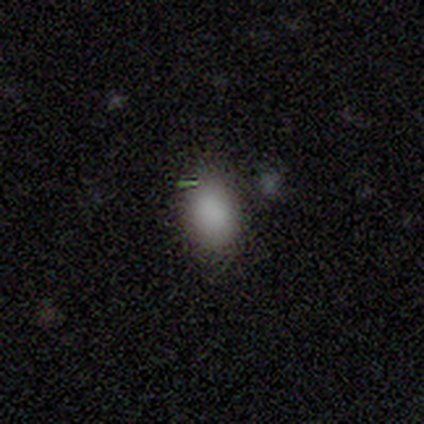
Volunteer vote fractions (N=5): This is likely a smooth galaxy (60%). How rounded: likely in between (67%). Merging: likely none (67%).